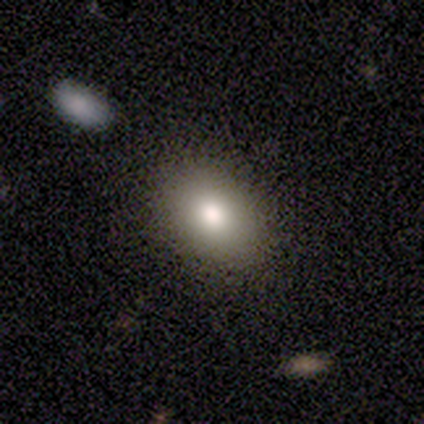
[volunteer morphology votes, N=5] Smooth or featured? star or artifact (60%)